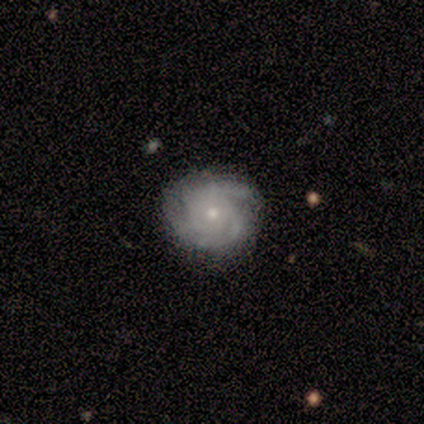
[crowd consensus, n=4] smooth-or-featured: featured or disk: 100% | smooth: 0% | star or artifact: 0%
  disk-edge-on: no: 100% | yes: 0%
    bar: no: 75% | weak: 25% | strong: 0%
    has-spiral-arms: yes: 100% | no: 0%
      spiral-winding: tight: 50% (tied) | medium: 50% (tied) | loose: 0%
      spiral-arm-count: can't tell: 75% | 2: 25% | 1: 0% | 3: 0% | 4: 0% | more than 4: 0%
    bulge-size: small: 75% | moderate: 25% | dominant: 0% | large: 0% | none: 0%
  merging: none: 100% | minor disturbance: 0% | major disturbance: 0% | merger: 0%